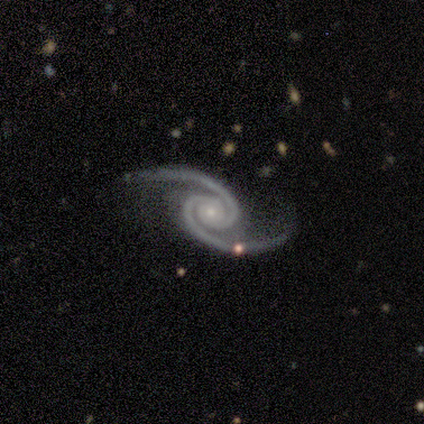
smooth-or-featured: featured or disk: 100% | smooth: 0% | star or artifact: 0%
  disk-edge-on: no: 100% | yes: 0%
    bar: no: 100% | strong: 0% | weak: 0%
    has-spiral-arms: yes: 100% | no: 0%
      spiral-winding: tight: 60% | medium: 40% | loose: 0%
      spiral-arm-count: 2: 100% | 1: 0% | 3: 0% | 4: 0% | more than 4: 0% | can't tell: 0%
    bulge-size: small: 80% | moderate: 20% | dominant: 0% | large: 0% | none: 0%
  merging: none: 80% | minor disturbance: 20% | major disturbance: 0% | merger: 0%